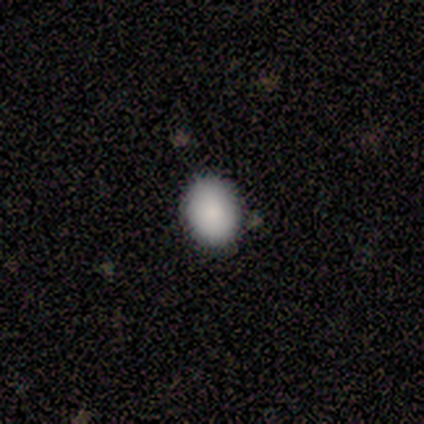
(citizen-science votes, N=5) This is clearly a smooth galaxy (100%). How rounded: likely in between (60%). Merging: likely none (60%).